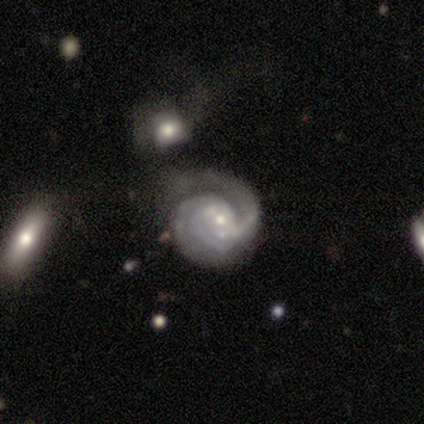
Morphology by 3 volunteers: A featured or disk galaxy (100%) with no bar (67%), 2 (67%) tight (100%) spiral arms (100%) and a small central bulge (67%). Merging: none (67%).